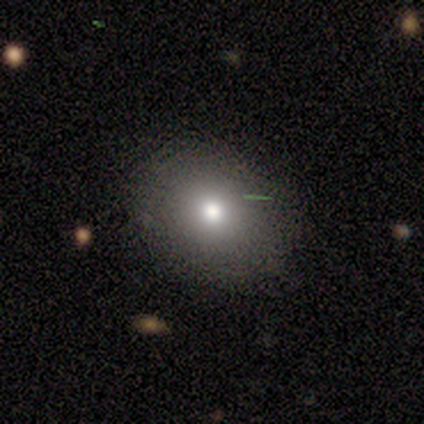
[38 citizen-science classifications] A smooth galaxy with no disk features (82%) that is round (65%).

Vote fractions:
- Smooth or featured? smooth: 82% / star or artifact: 11% / featured or disk: 8%
- How rounded? round: 65% / in between: 35% / cigar-shaped: 0%
- Merging? none: 79% / minor disturbance: 12% / major disturbance: 6% / merger: 3%